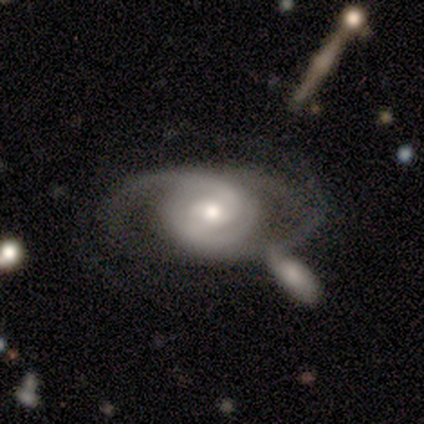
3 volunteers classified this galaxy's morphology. Smooth or featured?
  - featured or disk: 100% *
  - smooth: 0%
  - star or artifact: 0%
Edge-on disk?
  - no: 100% *
  - yes: 0%
Bar?
  - no: 67% *
  - weak: 33%
  - strong: 0%
Spiral arms?
  - yes: 100% *
  - no: 0%
Spiral winding?
  - medium: 67% *
  - tight: 33%
  - loose: 0%
Spiral arm count?
  - 2: 67% *
  - can't tell: 33%
  - 1: 0%
  - 3: 0%
  - 4: 0%
  - more than 4: 0%
Bulge size?
  - moderate: 100% *
  - dominant: 0%
  - large: 0%
  - small: 0%
  - none: 0%
Merging?
  - none: 67% *
  - merger: 33%
  - minor disturbance: 0%
  - major disturbance: 0%